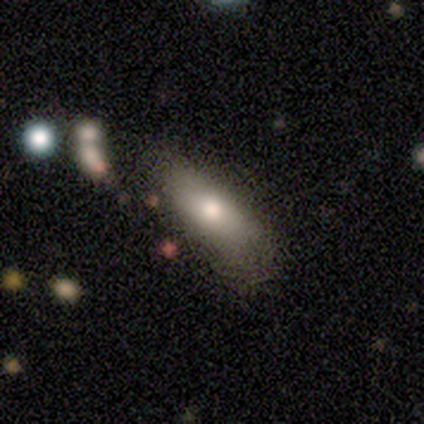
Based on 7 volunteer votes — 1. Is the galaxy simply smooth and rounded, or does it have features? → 100% smooth, 0% featured or disk, 0% star or artifact.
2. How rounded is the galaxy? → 100% in between, 0% round, 0% cigar-shaped.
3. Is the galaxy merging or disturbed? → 43% none, 29% minor disturbance, 14% major disturbance, 14% merger.